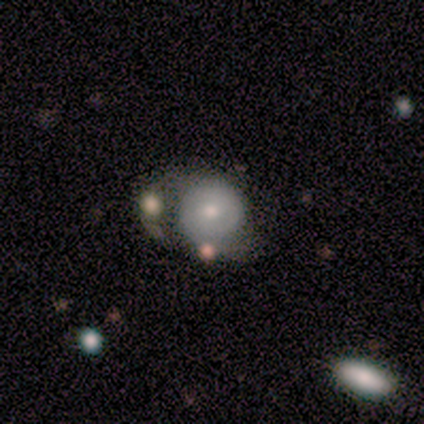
A featured or disk galaxy (60%) with no bar (100%), no spiral arms (100%) and a small central bulge (67%).

Vote fractions:
- Smooth or featured? featured or disk: 60% / smooth: 40% / star or artifact: 0%
- Edge-on disk? no: 100% / yes: 0%
- Bar? no: 100% / strong: 0% / weak: 0%
- Spiral arms? no: 100% / yes: 0%
- Bulge size? small: 67% / moderate: 33% / dominant: 0% / large: 0% / none: 0%
- Merging? major disturbance: 40% (tied) / merger: 40% (tied) / minor disturbance: 20% / none: 0%